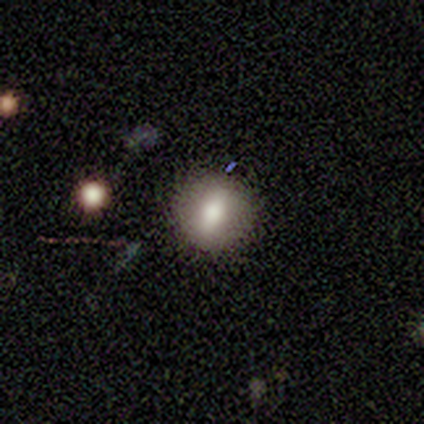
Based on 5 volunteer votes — Overall: smooth (60%; featured or disk 20%). How rounded: round (100%). Merging: none (100%).